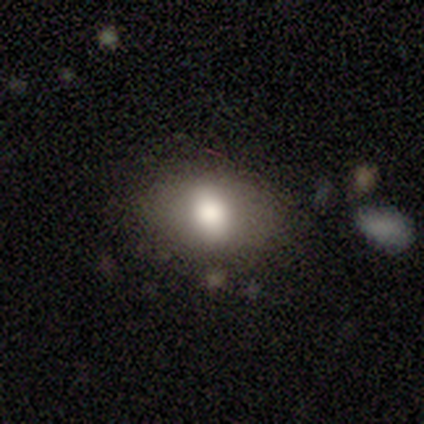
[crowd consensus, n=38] Smooth or featured? 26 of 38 (68%) said smooth. How rounded? 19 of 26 (73%) said in between. Merging? 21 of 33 (64%) said none.